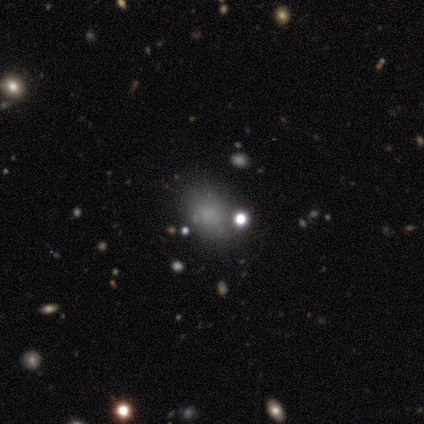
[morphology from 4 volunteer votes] Smooth or featured? 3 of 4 (75%) said smooth. How rounded? 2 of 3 (67%) said in between. Merging? 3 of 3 (100%) said none.